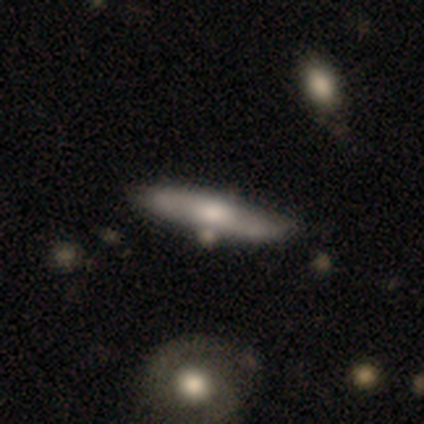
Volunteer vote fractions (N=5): Q: Smooth or featured?
A: featured or disk (100%)
Q: Edge-on disk?
A: yes (60%); runner-up: no (40%)
Q: Edge-on bulge?
A: rounded (100%)
Q: Merging?
A: none (40%); runner-up: minor disturbance (20%)